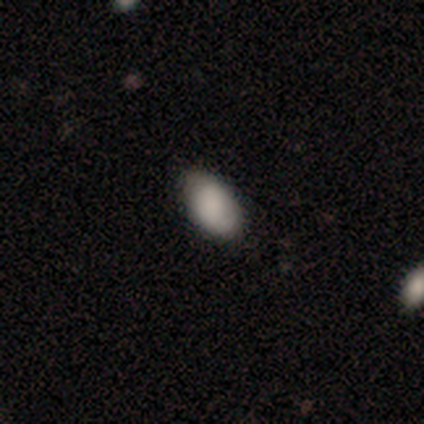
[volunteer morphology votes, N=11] This is clearly a smooth galaxy (100%). How rounded: clearly in between (100%). Merging: likely none (73%).